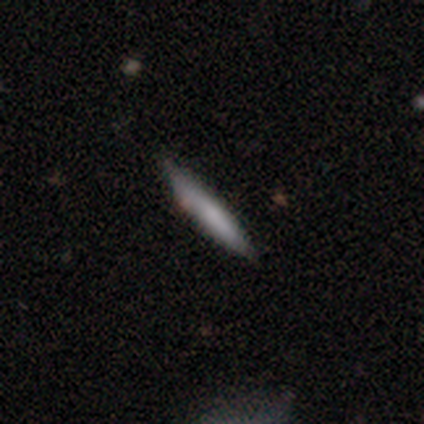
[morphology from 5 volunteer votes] Smooth or featured: smooth — 40% (tied with featured or disk — 40%)
How rounded: cigar-shaped — 100%
Merging: none — 75% (merger — 25%)